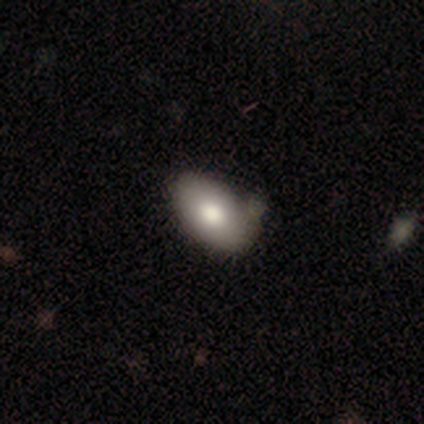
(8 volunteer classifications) smooth 62%, featured or disk 38%, star or artifact 0%. Down the decision tree: how rounded — in between (100%); merging — none (62%).